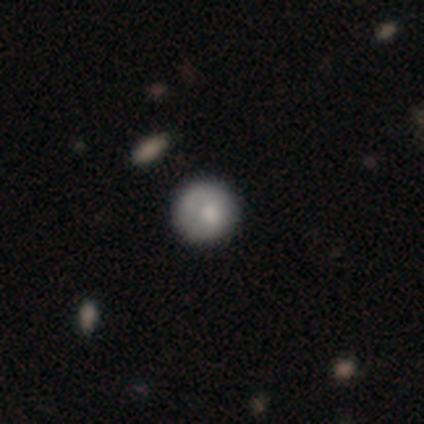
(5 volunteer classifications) smooth_or_featured: smooth (p=0.80) [alt: star or artifact p=0.20]
how_rounded: round (p=1.00)
merging: none (p=1.00)